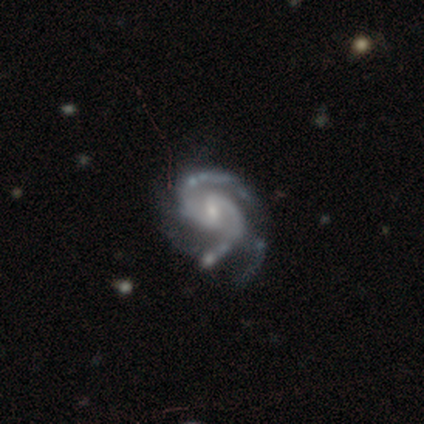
A featured or disk galaxy (94%) with a weak bar (53%), 2 (60%) medium (58%) spiral arms (97%) and a small central bulge (75%).

Vote fractions:
- Smooth or featured? featured or disk: 94% / star or artifact: 6% / smooth: 0%
- Edge-on disk? no: 99% / yes: 1%
- Bar? weak: 53% / no: 32% / strong: 15%
- Spiral arms? yes: 97% / no: 3%
- Spiral winding? medium: 58% / tight: 39% / loose: 3%
- Spiral arm count? 2: 60% / 3: 34% / 4: 3% / can't tell: 3% / more than 4: 1% / 1: 0%
- Bulge size? small: 75% / moderate: 18% / none: 5% / dominant: 1% / large: 1%
- Merging? none: 51% / major disturbance: 25% / minor disturbance: 24% / merger: 0%